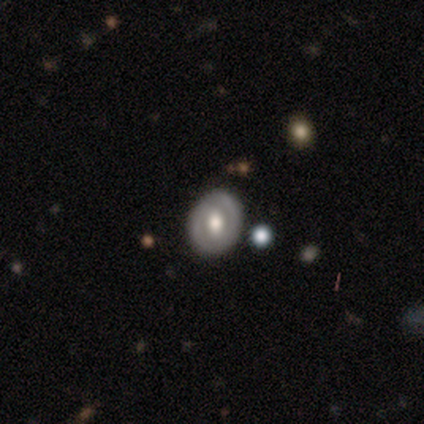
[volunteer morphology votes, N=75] smooth_or_featured: featured or disk (p=0.68) [alt: smooth p=0.24]
disk_edge_on: no (p=0.98) [alt: yes p=0.02]
bar: no (p=0.54) [alt: strong p=0.24]
has_spiral_arms: no (p=0.64) [alt: yes p=0.36]
bulge_size: moderate (p=0.58) [alt: large p=0.30]
merging: none (p=0.90) [alt: major disturbance p=0.06]